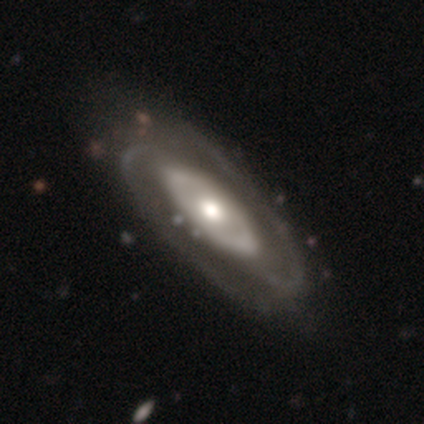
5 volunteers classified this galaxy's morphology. type=featured or disk (100%); edge-on=no (60%); bar=no (67%); spiral arms=yes (100%); winding=medium (67%); arm count=2 (100%); bulge=moderate (67%); merging=none (60%).